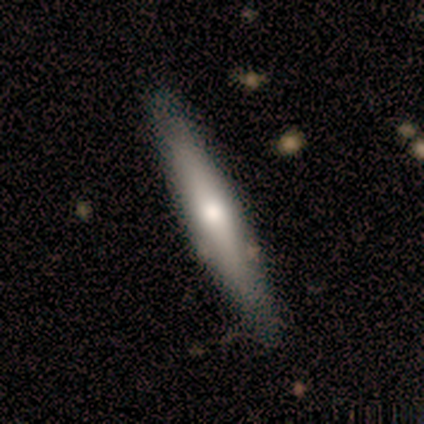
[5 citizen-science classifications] A featured or disk galaxy (60%) viewed edge-on (100%) with a rounded central bulge (100%). Merging: none (100%).